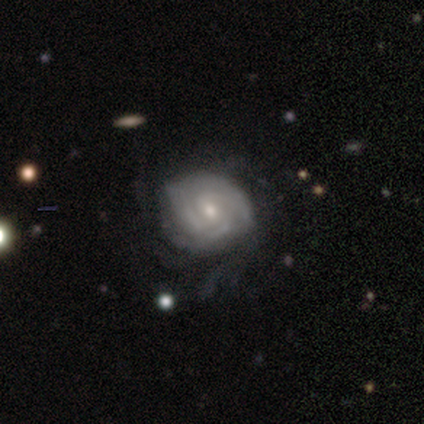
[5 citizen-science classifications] This appears to be a featured or disk galaxy (100%) with no bar (60%), 3 (50%) tight (50%, tied with medium) spiral arms (80%) and a small central bulge (80%). Merging: none (80%).